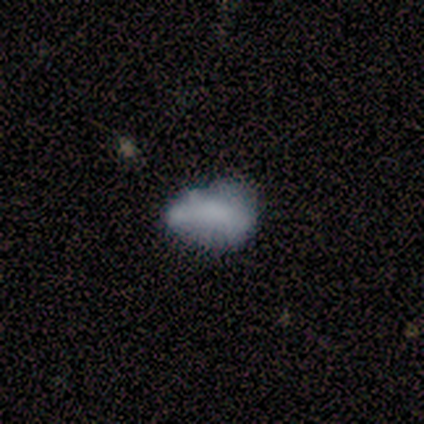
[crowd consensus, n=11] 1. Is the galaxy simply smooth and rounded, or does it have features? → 82% smooth, 18% featured or disk, 0% star or artifact.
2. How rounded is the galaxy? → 89% in between, 11% round, 0% cigar-shaped.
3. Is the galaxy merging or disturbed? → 55% none, 36% minor disturbance, 9% merger, 0% major disturbance.